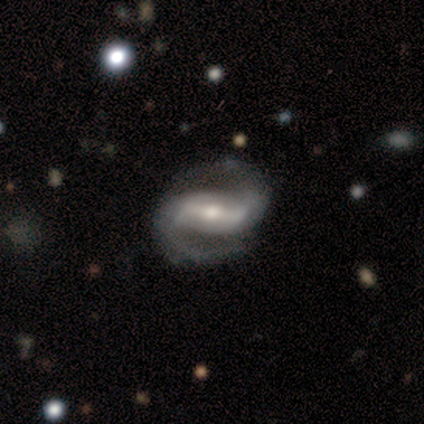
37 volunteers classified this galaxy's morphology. This appears to be a featured or disk galaxy (100%) with a strong bar (72%), 2 (97%) medium (60%) spiral arms (97%) and a moderate central bulge (50%). Merging: none (92%).